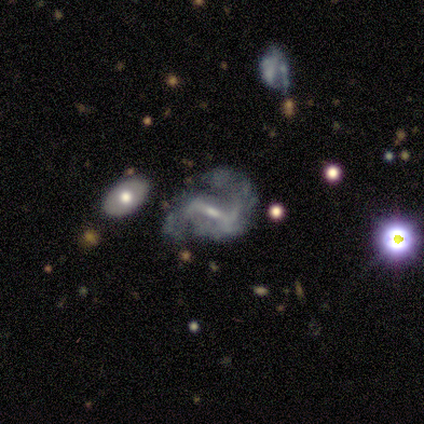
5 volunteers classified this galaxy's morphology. Smooth or featured? featured or disk (100%)
Edge-on disk? no (100%)
Bar? strong (60%)
Spiral arms? yes (80%)
Spiral winding? medium (50%, tied with loose)
Spiral arm count? 2 (100%)
Bulge size? small (100%)
Merging? none (60%)